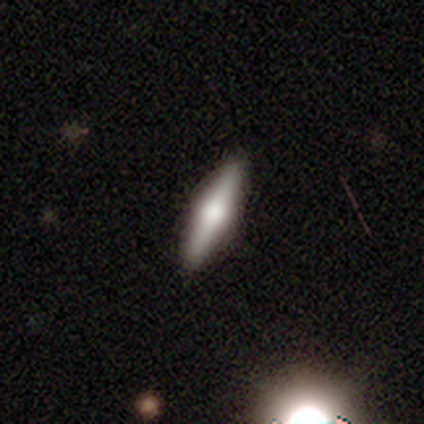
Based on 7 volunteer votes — Volunteers were most divided on "smooth or featured": featured or disk: 71%, smooth: 29%, star or artifact: 0%. More confident: edge-on disk — yes (100%); edge-on bulge — rounded (100%); merging — none (100%).